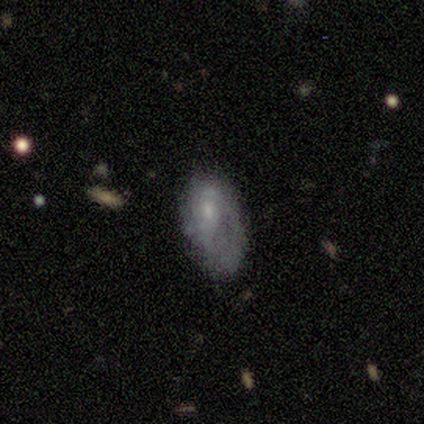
This appears to be a featured or disk galaxy (49%) with no bar (82%), no spiral arms (53%) and a small central bulge (71%). Merging: none (40%).